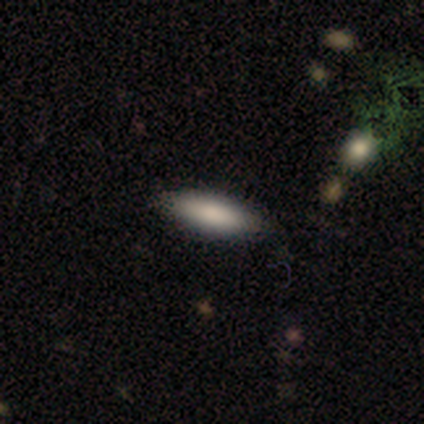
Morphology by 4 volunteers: type=smooth (50%, tied with featured or disk); roundness=in between (50%, tied with cigar-shaped); merging=none (100%).